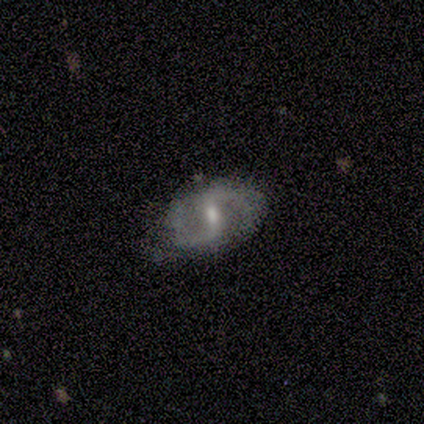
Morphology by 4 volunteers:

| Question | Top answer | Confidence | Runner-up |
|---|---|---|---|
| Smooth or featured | featured or disk | 75% | smooth (25%) |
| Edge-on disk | no | 67% | yes (33%) |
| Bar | weak | 100% | — |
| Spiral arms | yes | 50% | tied: no (50%) |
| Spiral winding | loose | 100% | — |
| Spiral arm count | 2 | 100% | — |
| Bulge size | small | 100% | — |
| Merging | none | 50% | minor disturbance (25%) |